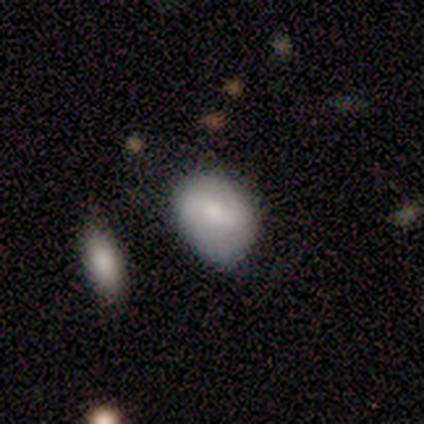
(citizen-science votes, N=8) Smooth or featured?
  - featured or disk: 62% *
  - smooth: 38%
  - star or artifact: 0%
Edge-on disk?
  - no: 100% *
  - yes: 0%
Bar?
  - weak: 40% * (tied)
  - no: 40% * (tied)
  - strong: 20%
Spiral arms?
  - yes: 80% *
  - no: 20%
Spiral winding?
  - medium: 50% *
  - tight: 25%
  - loose: 25%
Spiral arm count?
  - 2: 100% *
  - 1: 0%
  - 3: 0%
  - 4: 0%
  - more than 4: 0%
  - can't tell: 0%
Bulge size?
  - moderate: 100% *
  - dominant: 0%
  - large: 0%
  - small: 0%
  - none: 0%
Merging?
  - none: 50% *
  - minor disturbance: 38%
  - major disturbance: 12%
  - merger: 0%